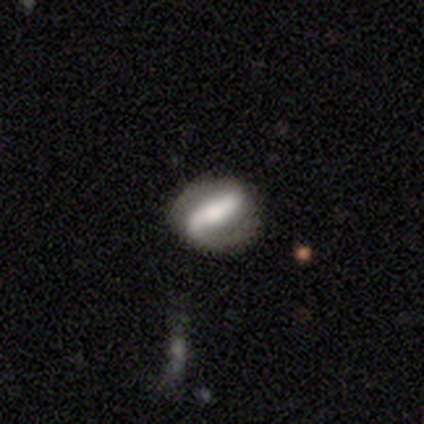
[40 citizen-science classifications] Morphology: type=featured or disk (72%); edge-on=no (86%); bar=strong (60%); spiral arms=yes (76%); winding=medium (47%); arm count=2 (79%); bulge=moderate (52%); merging=none (85%).